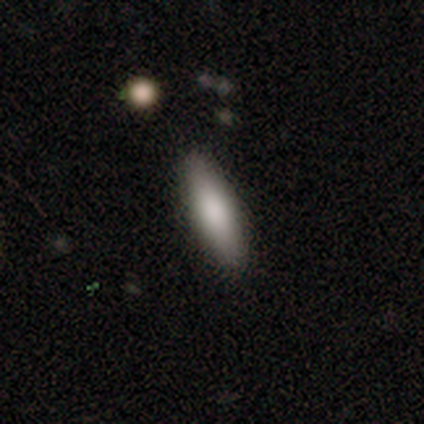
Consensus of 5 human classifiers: smooth_or_featured: smooth (p=0.60) [alt: featured or disk p=0.20]
how_rounded: cigar-shaped (p=0.67) [alt: in between p=0.33]
merging: none (p=1.00)